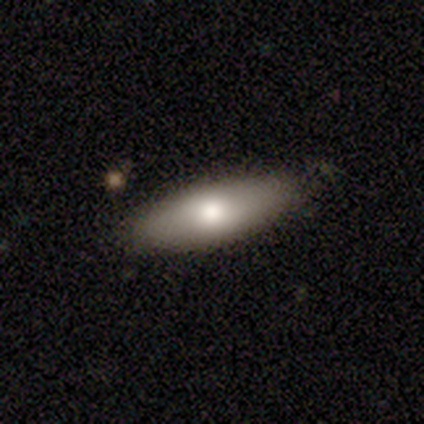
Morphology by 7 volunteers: This appears to be a smooth galaxy with no disk features (100%) that is in between round and cigar-shaped (100%). Merging: none (100%).